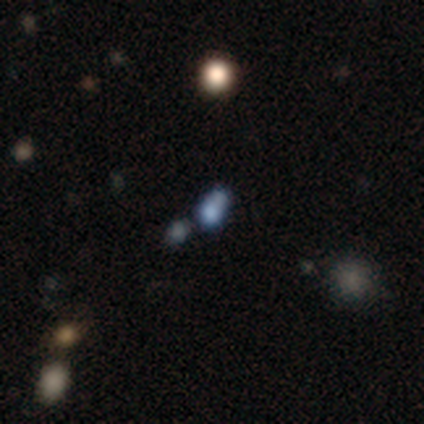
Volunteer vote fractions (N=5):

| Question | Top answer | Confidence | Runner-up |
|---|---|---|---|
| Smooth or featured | smooth | 40% | tied: star or artifact (40%) |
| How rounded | round | 50% | tied: cigar-shaped (50%) |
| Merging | minor disturbance | 67% | none (33%) |